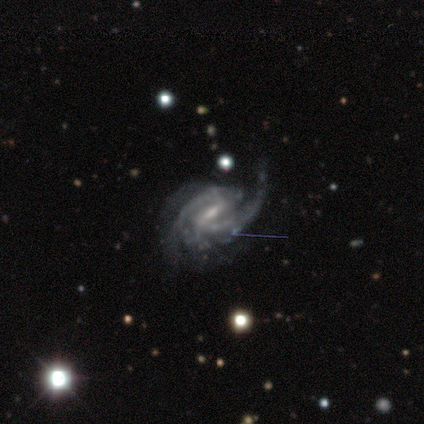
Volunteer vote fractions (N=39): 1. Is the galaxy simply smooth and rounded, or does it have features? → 95% featured or disk, 3% smooth, 3% star or artifact.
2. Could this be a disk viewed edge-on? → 100% no, 0% yes.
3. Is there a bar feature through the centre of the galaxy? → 57% weak, 41% strong, 3% no.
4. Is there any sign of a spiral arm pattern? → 97% yes, 3% no.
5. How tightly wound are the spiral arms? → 44% tight, 39% medium, 17% loose.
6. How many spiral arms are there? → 72% 2, 11% 1, 8% 3, 8% can't tell, 0% 4, 0% more than 4.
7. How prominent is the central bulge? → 65% small, 27% moderate, 3% dominant, 3% large, 3% none.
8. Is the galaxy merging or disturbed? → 55% none, 26% minor disturbance, 18% major disturbance, 0% merger.